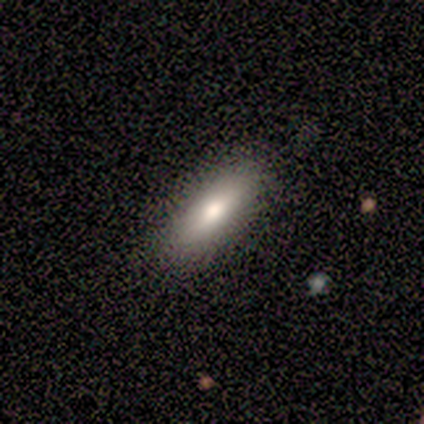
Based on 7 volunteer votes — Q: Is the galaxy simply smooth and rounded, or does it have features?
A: smooth — 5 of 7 (71%).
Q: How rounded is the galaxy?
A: cigar-shaped — 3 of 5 (60%).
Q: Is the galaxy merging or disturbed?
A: none — 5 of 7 (71%).